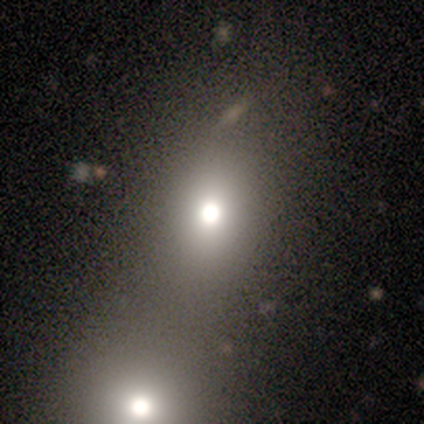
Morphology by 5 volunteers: A smooth galaxy with no disk features (80%) that is in between round and cigar-shaped (75%). Merging: minor disturbance (50%).